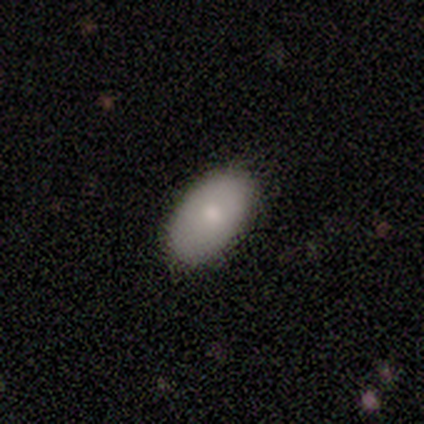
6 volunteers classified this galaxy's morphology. Smooth or featured? smooth (50%, tied with featured or disk)
How rounded? in between (100%)
Merging? none (100%)